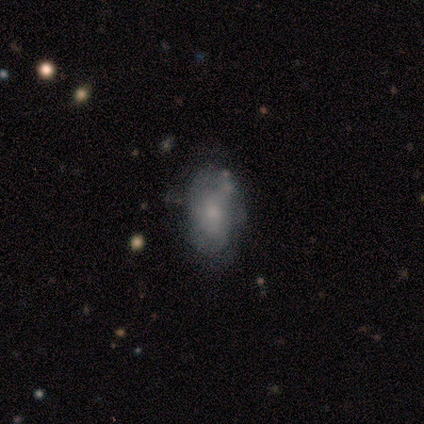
Volunteers were most divided on "smooth or featured": smooth: 67%, star or artifact: 33%, featured or disk: 0%. More confident: how rounded — in between (100%); merging — none (100%).